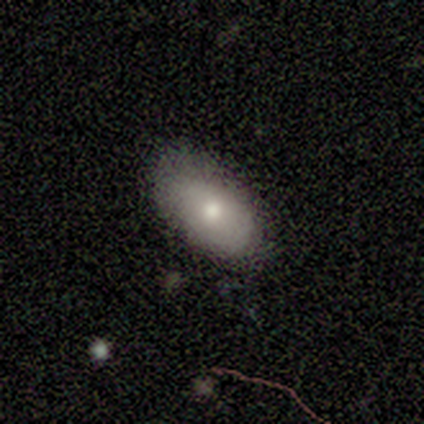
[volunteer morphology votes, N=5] A featured or disk galaxy (60%) with no bar (100%), no spiral arms (100%) and a moderate central bulge (100%).

Vote fractions:
- Smooth or featured? featured or disk: 60% / smooth: 40% / star or artifact: 0%
- Edge-on disk? no: 100% / yes: 0%
- Bar? no: 100% / strong: 0% / weak: 0%
- Spiral arms? no: 100% / yes: 0%
- Bulge size? moderate: 100% / dominant: 0% / large: 0% / small: 0% / none: 0%
- Merging? none: 80% / minor disturbance: 20% / major disturbance: 0% / merger: 0%